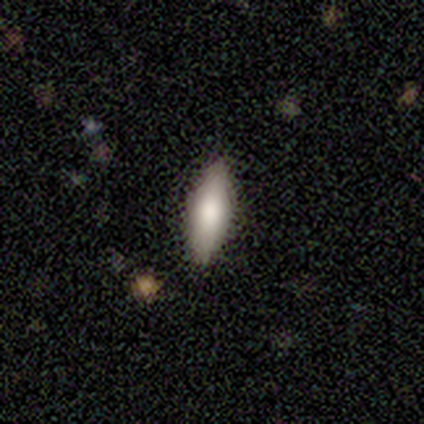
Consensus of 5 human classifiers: Q: Smooth or featured?
A: smooth (100%)
Q: How rounded?
A: in between (60%); runner-up: cigar-shaped (40%)
Q: Merging?
A: none (100%)